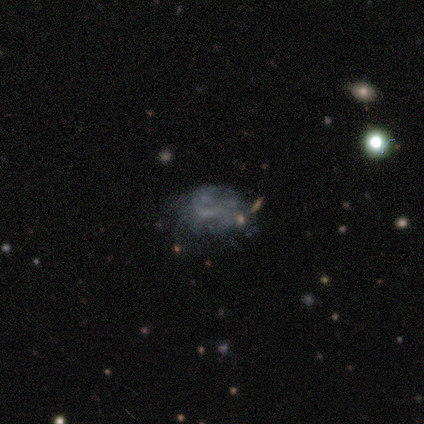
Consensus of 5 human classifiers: A featured or disk galaxy (80%) with no bar (75%), no spiral arms (75%) and no central bulge (75%). Merging: minor disturbance (40%, tied with merger).